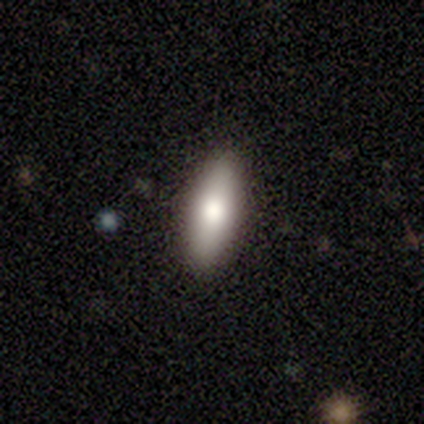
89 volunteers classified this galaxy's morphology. This is likely a smooth galaxy (79%). How rounded: possibly cigar-shaped (53%). Merging: clearly none (82%).